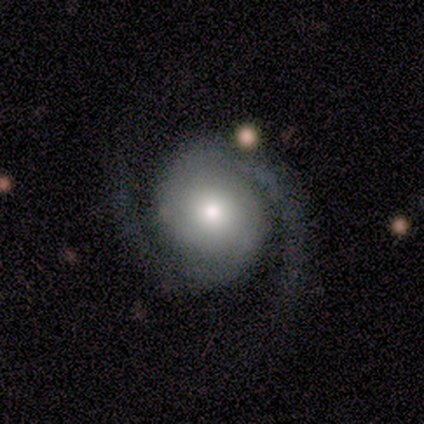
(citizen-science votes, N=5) Smooth or featured?
  - featured or disk: 100% *
  - smooth: 0%
  - star or artifact: 0%
Edge-on disk?
  - no: 100% *
  - yes: 0%
Bar?
  - no: 100% *
  - strong: 0%
  - weak: 0%
Spiral arms?
  - yes: 100% *
  - no: 0%
Spiral winding?
  - medium: 80% *
  - tight: 20%
  - loose: 0%
Spiral arm count?
  - 2: 100% *
  - 1: 0%
  - 3: 0%
  - 4: 0%
  - more than 4: 0%
  - can't tell: 0%
Bulge size?
  - small: 80% *
  - moderate: 20%
  - dominant: 0%
  - large: 0%
  - none: 0%
Merging?
  - none: 60% *
  - minor disturbance: 20%
  - major disturbance: 20%
  - merger: 0%